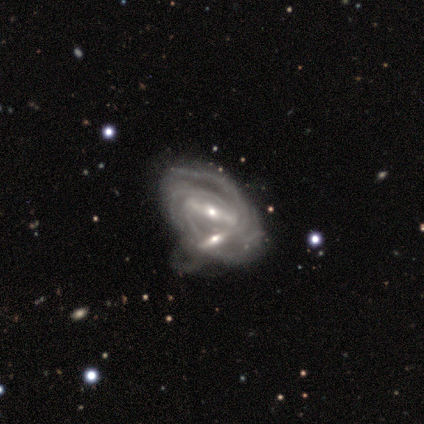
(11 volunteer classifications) A featured or disk galaxy (91%) with a strong bar (56%), 2 (50%) tight (62%) spiral arms (89%) and a small central bulge (67%). Merging: merger (55%).